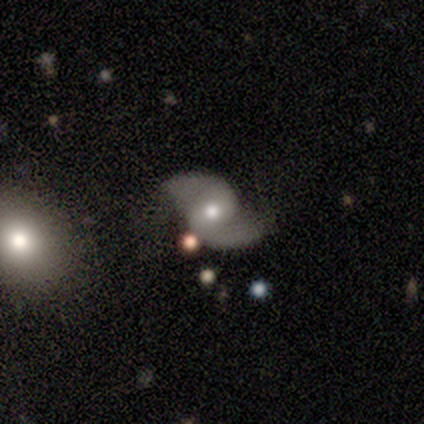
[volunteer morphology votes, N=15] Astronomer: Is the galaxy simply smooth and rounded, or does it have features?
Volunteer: featured or disk — 87%.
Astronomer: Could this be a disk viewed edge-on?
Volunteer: no — 100%.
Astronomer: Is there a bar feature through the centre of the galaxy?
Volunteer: no — 77%.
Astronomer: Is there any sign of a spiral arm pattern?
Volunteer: yes — 100%.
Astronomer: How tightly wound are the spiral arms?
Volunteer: loose — 77%.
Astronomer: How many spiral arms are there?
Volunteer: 2 — 92%.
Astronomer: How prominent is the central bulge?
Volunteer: moderate — 77%.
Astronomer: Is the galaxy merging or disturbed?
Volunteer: none — 79%.